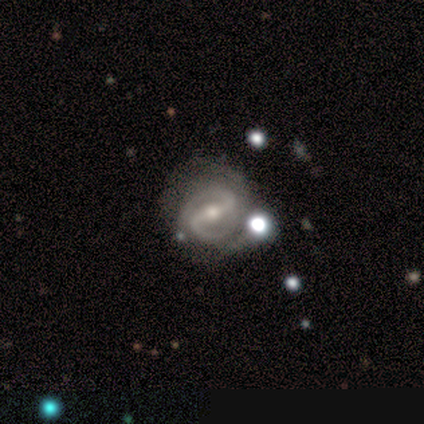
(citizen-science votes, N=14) smooth_or_featured: featured or disk (p=0.93) [alt: smooth p=0.07]
disk_edge_on: no (p=1.00)
bar: strong (p=0.62) [alt: weak p=0.38]
has_spiral_arms: yes (p=1.00)
spiral_winding: medium (p=0.62) [alt: tight p=0.31]
spiral_arm_count: 2 (p=0.92) [alt: can't tell p=0.08]
bulge_size: moderate (p=0.69) [alt: small p=0.31]
merging: minor disturbance (p=0.57) [alt: none p=0.43]